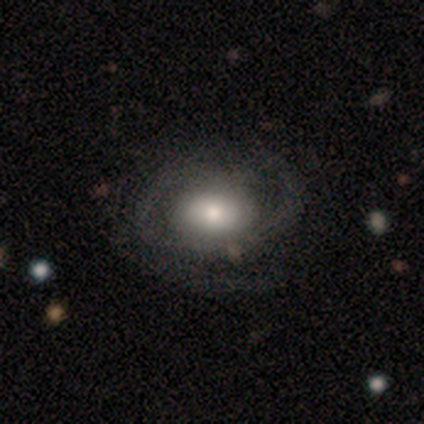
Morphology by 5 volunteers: smooth-or-featured: featured or disk: 60% | smooth: 40% | star or artifact: 0%
  disk-edge-on: no: 67% | yes: 33%
    bar: weak: 50% (tied) | no: 50% (tied) | strong: 0%
    has-spiral-arms: yes: 100% | no: 0%
      spiral-winding: medium: 100% | tight: 0% | loose: 0%
      spiral-arm-count: 1: 50% (tied) | 2: 50% (tied) | 3: 0% | 4: 0% | more than 4: 0% | can't tell: 0%
    bulge-size: moderate: 50% (tied) | small: 50% (tied) | dominant: 0% | large: 0% | none: 0%
  merging: none: 40% (tied) | minor disturbance: 40% (tied) | major disturbance: 20% | merger: 0%